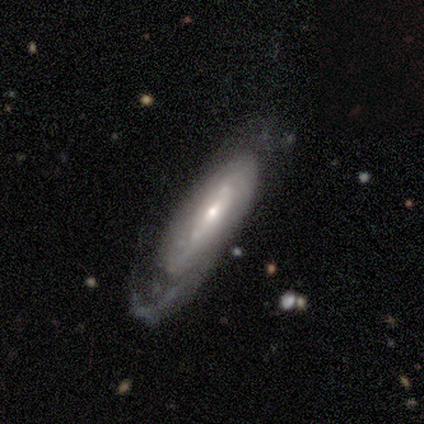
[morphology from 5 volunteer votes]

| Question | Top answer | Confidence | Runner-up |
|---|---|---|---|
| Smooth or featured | featured or disk | 80% | star or artifact (20%) |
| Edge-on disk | no | 75% | yes (25%) |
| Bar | weak | 67% | strong (33%) |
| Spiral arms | yes | 100% | — |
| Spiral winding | loose | 67% | medium (33%) |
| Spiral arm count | can't tell | 67% | 1 (33%) |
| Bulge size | small | 100% | — |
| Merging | none | 75% | major disturbance (25%) |